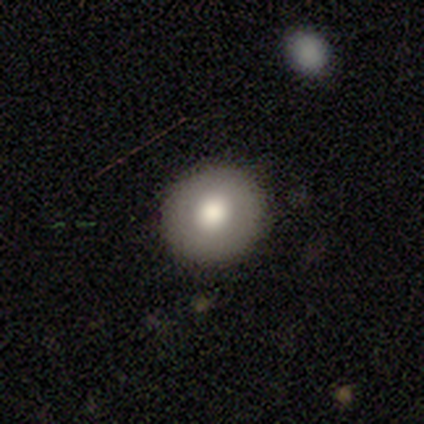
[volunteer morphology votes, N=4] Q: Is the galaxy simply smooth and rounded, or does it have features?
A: smooth — 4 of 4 (100%).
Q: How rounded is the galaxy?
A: round — 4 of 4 (100%).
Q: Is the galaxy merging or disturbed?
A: none — 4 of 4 (100%).